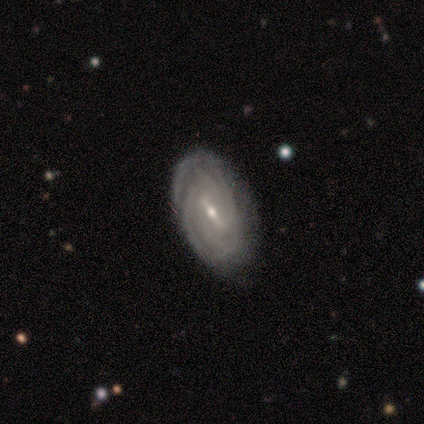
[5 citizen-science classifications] Smooth or featured? 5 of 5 (100%) said featured or disk. Edge-on disk? 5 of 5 (100%) said no. Bar? 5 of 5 (100%) said strong. Spiral arms? 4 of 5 (80%) said yes. Spiral winding? 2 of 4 (50%, tied with medium) said tight. Spiral arm count? 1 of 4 (25%, tied with 3, 4 and can't tell) said 2. Bulge size? 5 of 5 (100%) said small. Merging? 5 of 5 (100%) said none.